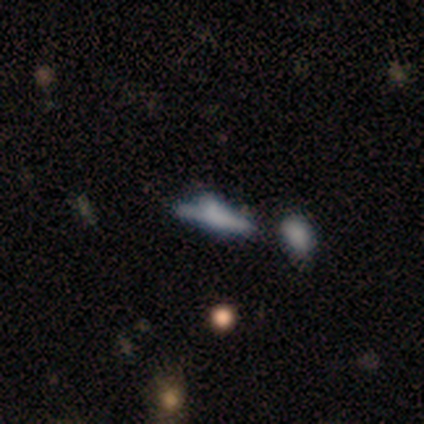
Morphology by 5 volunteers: Q: Smooth or featured?
A: smooth (60%); runner-up: featured or disk (40%)
Q: How rounded?
A: in between (67%); runner-up: cigar-shaped (33%)
Q: Merging?
A: minor disturbance (40%); tied with: merger (40%)